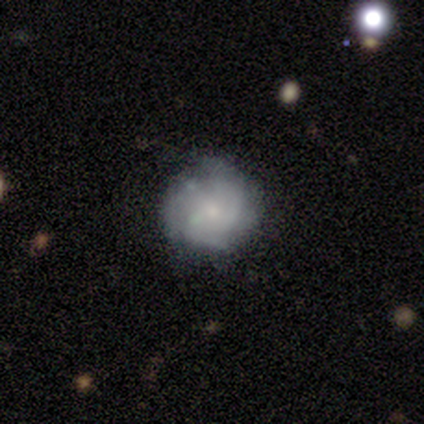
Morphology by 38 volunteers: Volunteers were most divided on "spiral winding": tight: 44%, medium: 38%, loose: 19%. Remaining: edge-on disk — no (100%); bulge size — small (87%); merging — none (80%); bar — no (70%); spiral arms — yes (70%); smooth or featured — featured or disk (61%); spiral arm count — 3 (44%).